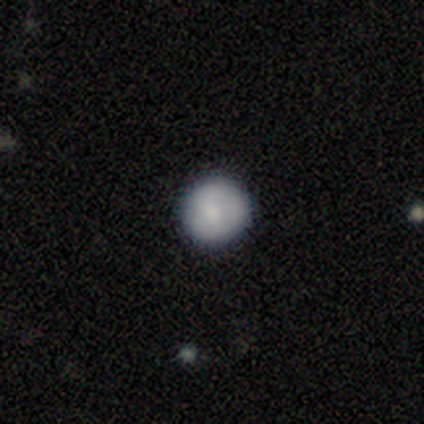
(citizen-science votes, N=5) Smooth or featured? 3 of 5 (60%) said smooth. How rounded? 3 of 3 (100%) said round. Merging? 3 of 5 (60%) said none.